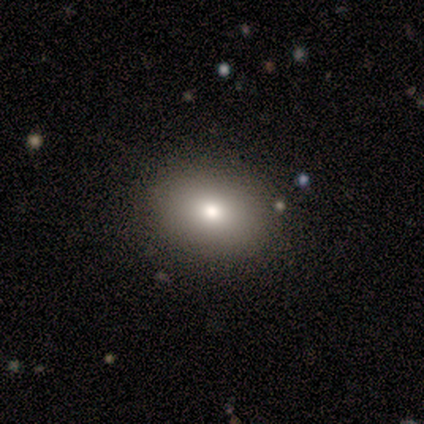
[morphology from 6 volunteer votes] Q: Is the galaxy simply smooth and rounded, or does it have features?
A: smooth — 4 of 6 (67%).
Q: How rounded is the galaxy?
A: in between — 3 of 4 (75%).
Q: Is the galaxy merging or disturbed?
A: none — 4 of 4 (100%).